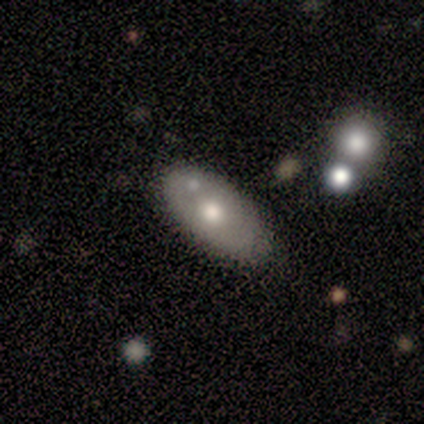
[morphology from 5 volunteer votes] This is marginally a smooth galaxy (40%, tied with featured or disk). How rounded: clearly in between (100%). Merging: clearly none (100%).